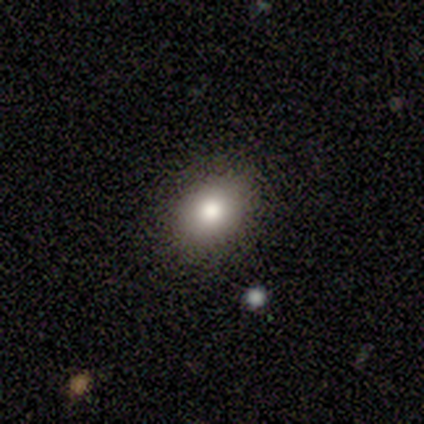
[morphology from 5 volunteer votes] Smooth or featured? smooth (100%)
How rounded? round (60%)
Merging? none (80%)